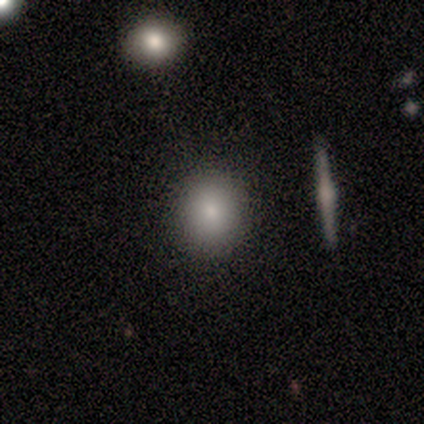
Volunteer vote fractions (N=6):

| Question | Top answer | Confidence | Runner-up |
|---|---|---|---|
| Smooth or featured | smooth | 67% | star or artifact (33%) |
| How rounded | round | 100% | — |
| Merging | none | 100% | — |